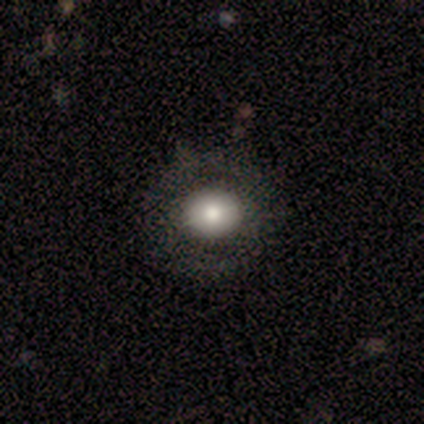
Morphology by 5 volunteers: Q: Smooth or featured?
A: smooth (80%); runner-up: featured or disk (20%)
Q: How rounded?
A: round (75%); runner-up: in between (25%)
Q: Merging?
A: none (80%); runner-up: minor disturbance (20%)